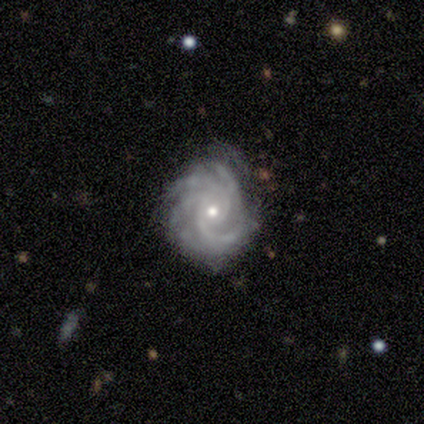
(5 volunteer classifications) Overall: featured or disk (100%). Edge-on disk: no (100%). Bar: no (100%). Spiral arms: yes (100%). Spiral arm count: can't tell (40%; 3 20%). Spiral winding: tight (80%). Bulge size: small (100%). Merging: none (80%).